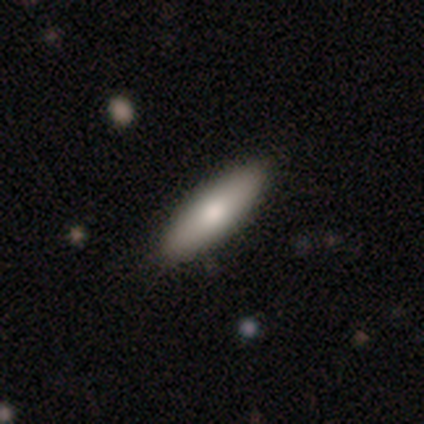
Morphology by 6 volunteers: Smooth or featured: smooth — 83% (featured or disk — 17%)
How rounded: in between — 80% (cigar-shaped — 20%)
Merging: none — 100%